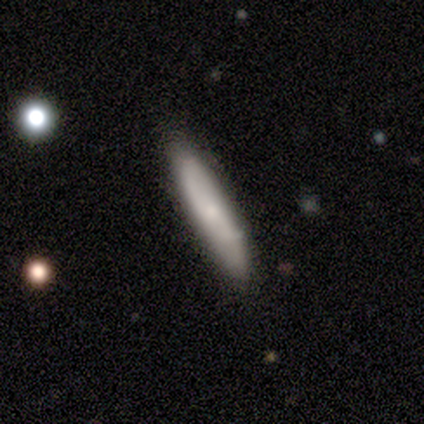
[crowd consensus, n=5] smooth-or-featured: smooth: 80% | featured or disk: 20% | star or artifact: 0%
  how-rounded: cigar-shaped: 100% | round: 0% | in between: 0%
  merging: none: 80% | minor disturbance: 20% | major disturbance: 0% | merger: 0%